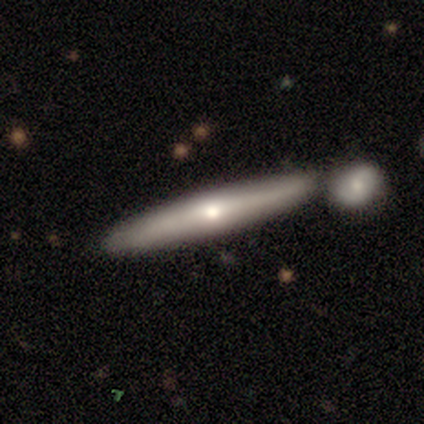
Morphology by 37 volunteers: smooth-or-featured: featured or disk: 62% | smooth: 30% | star or artifact: 8%
  disk-edge-on: yes: 96% | no: 4%
    edge-on-bulge: rounded: 68% | none: 27% | boxy: 5%
  merging: none: 56% | merger: 26% | minor disturbance: 18% | major disturbance: 0%